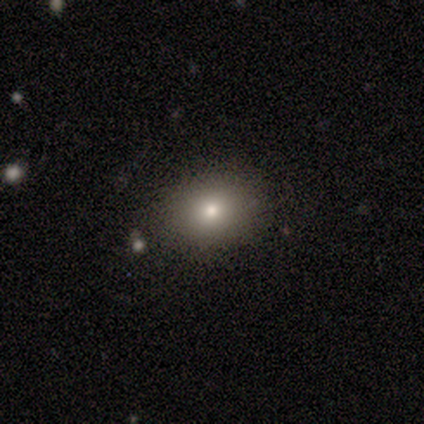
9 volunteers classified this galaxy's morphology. Smooth or featured: smooth — 78% (star or artifact — 22%)
How rounded: round — 57% (in between — 43%)
Merging: none — 100%